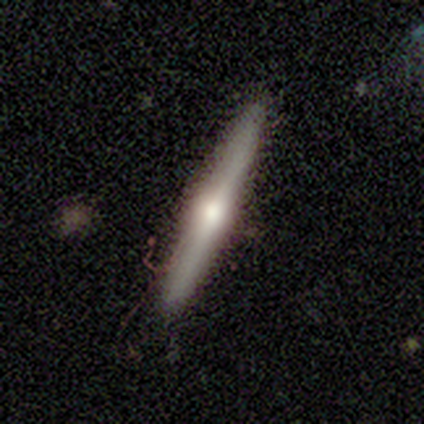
Smooth or featured? featured or disk (60%)
Edge-on disk? yes (100%)
Edge-on bulge? rounded (100%)
Merging? none (100%)